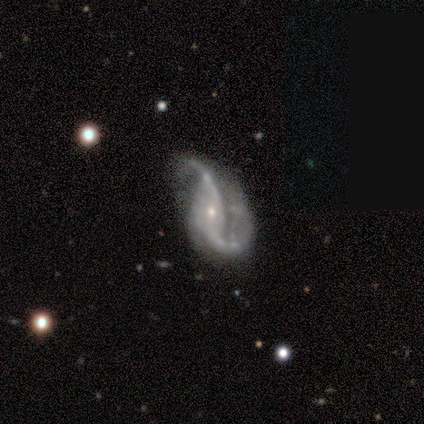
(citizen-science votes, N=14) Q: Smooth or featured?
A: featured or disk (100%)
Q: Edge-on disk?
A: no (100%)
Q: Bar?
A: no (71%); runner-up: strong (14%)
Q: Spiral arms?
A: yes (93%); runner-up: no (7%)
Q: Spiral winding?
A: loose (92%); runner-up: medium (8%)
Q: Spiral arm count?
A: 2 (100%)
Q: Bulge size?
A: small (79%); runner-up: moderate (21%)
Q: Merging?
A: minor disturbance (29%); tied with: major disturbance (29%)